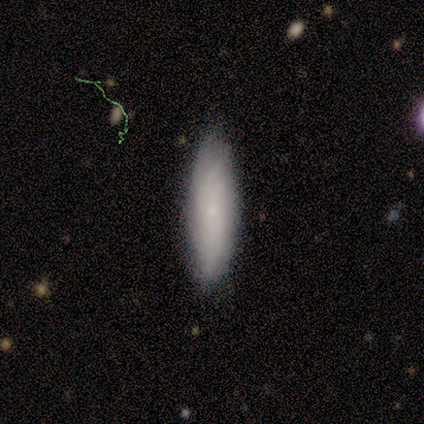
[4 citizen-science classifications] Smooth or featured?
  - featured or disk: 75% *
  - smooth: 25%
  - star or artifact: 0%
Edge-on disk?
  - no: 67% *
  - yes: 33%
Bar?
  - weak: 50% * (tied)
  - no: 50% * (tied)
  - strong: 0%
Spiral arms?
  - yes: 50% * (tied)
  - no: 50% * (tied)
Spiral winding?
  - tight: 100% *
  - medium: 0%
  - loose: 0%
Spiral arm count?
  - 2: 100% *
  - 1: 0%
  - 3: 0%
  - 4: 0%
  - more than 4: 0%
  - can't tell: 0%
Bulge size?
  - moderate: 50% * (tied)
  - small: 50% * (tied)
  - dominant: 0%
  - large: 0%
  - none: 0%
Merging?
  - none: 50% * (tied)
  - minor disturbance: 50% * (tied)
  - major disturbance: 0%
  - merger: 0%